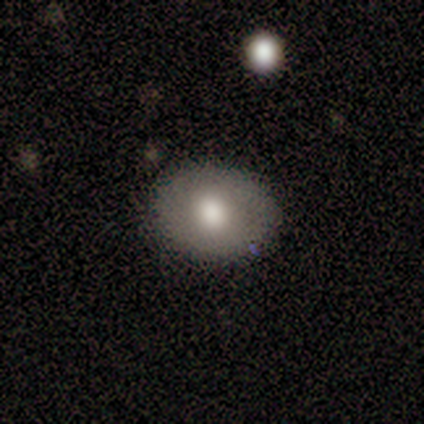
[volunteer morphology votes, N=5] type=smooth (80%); roundness=in between (75%); merging=none (100%).